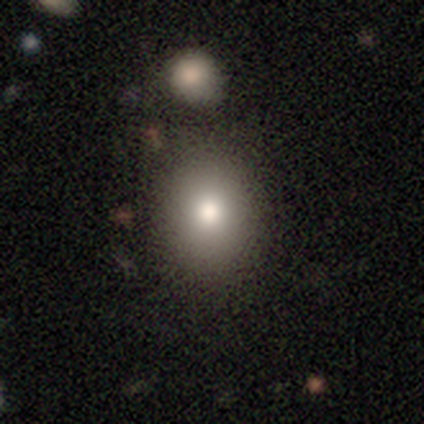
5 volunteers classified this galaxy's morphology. Smooth or featured? 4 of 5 (80%) said smooth. How rounded? 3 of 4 (75%) said round. Merging? 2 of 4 (50%) said none.